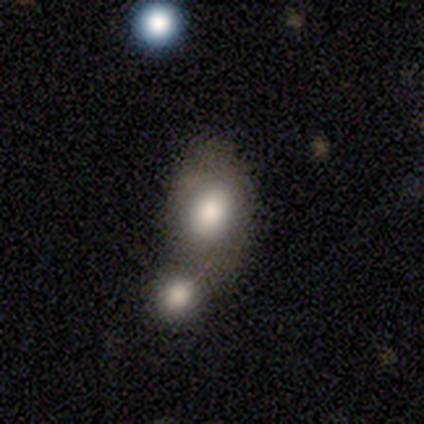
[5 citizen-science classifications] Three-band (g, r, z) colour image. It shows a smooth galaxy with no disk features (80%) that is in between round and cigar-shaped (75%). Merging: merger (80%).